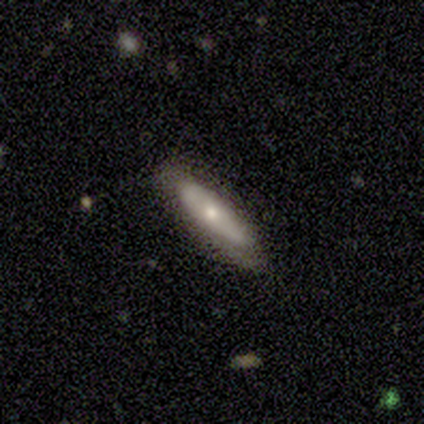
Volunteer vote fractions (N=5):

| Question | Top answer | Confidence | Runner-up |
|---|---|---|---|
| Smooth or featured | smooth | 100% | — |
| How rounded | cigar-shaped | 60% | in between (40%) |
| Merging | none | 40% | tied: major disturbance (40%) |